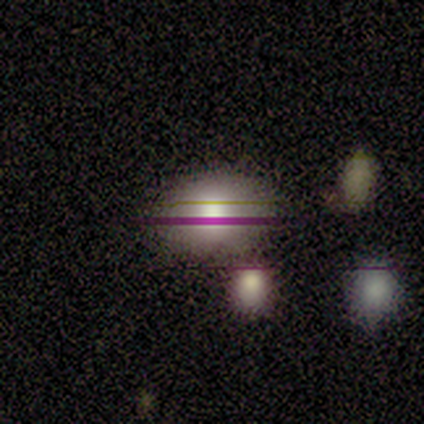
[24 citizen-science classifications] smooth 71%, star or artifact 25%, featured or disk 4%. Down the decision tree: how rounded — in between (82%); merging — none (83%).